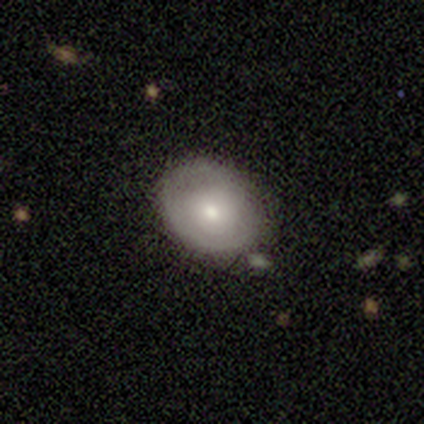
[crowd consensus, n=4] Smooth or featured? 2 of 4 (50%, tied with featured or disk) said smooth. How rounded? 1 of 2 (50%, tied with in between) said round. Merging? 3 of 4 (75%) said none.